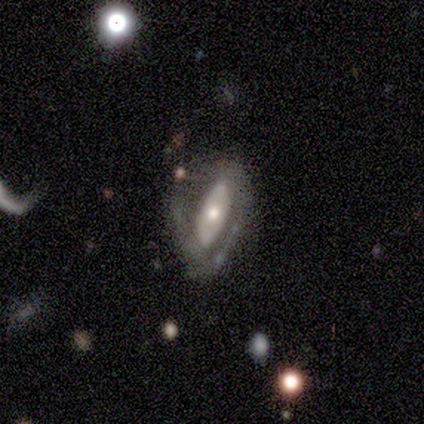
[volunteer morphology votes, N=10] smooth_or_featured: featured or disk (p=0.60) [alt: smooth p=0.20]
disk_edge_on: no (p=0.67) [alt: yes p=0.33]
bar: weak (p=0.50) [tied with: no p=0.50]
has_spiral_arms: yes (p=0.75) [alt: no p=0.25]
spiral_winding: tight (p=0.67) [alt: medium p=0.33]
spiral_arm_count: 2 (p=1.00)
bulge_size: moderate (p=0.75) [alt: small p=0.25]
merging: none (p=0.38) [tied with: minor disturbance p=0.38]